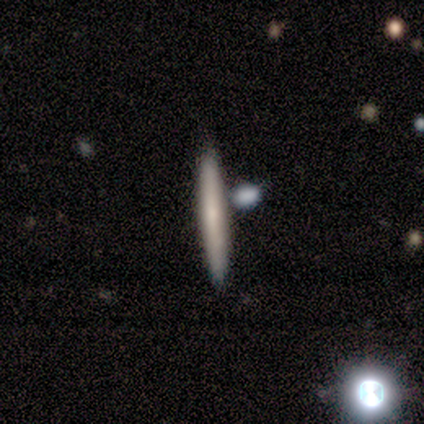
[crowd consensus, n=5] Overall: smooth (60%; featured or disk 40%). How rounded: cigar-shaped (100%). Merging: none (100%).